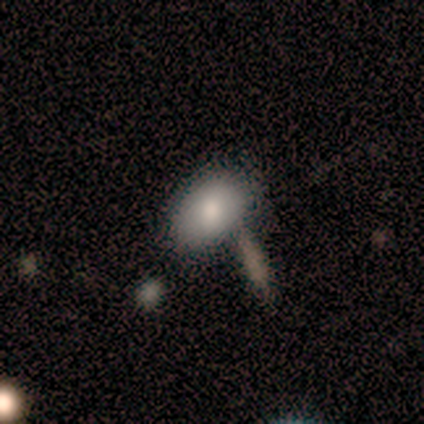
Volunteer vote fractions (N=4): A smooth galaxy with no disk features (75%) that is in between round and cigar-shaped (100%).

Vote fractions:
- Smooth or featured? smooth: 75% / featured or disk: 25% / star or artifact: 0%
- How rounded? in between: 100% / round: 0% / cigar-shaped: 0%
- Merging? none: 100% / minor disturbance: 0% / major disturbance: 0% / merger: 0%